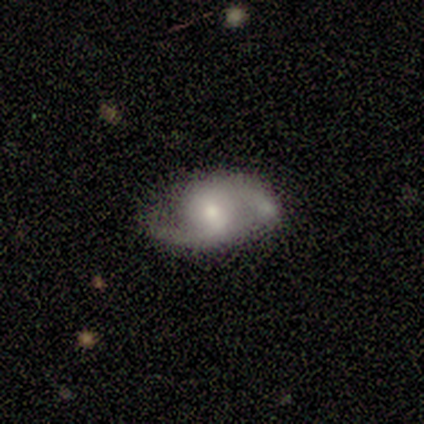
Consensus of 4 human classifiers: A featured or disk galaxy (100%) with no bar (67%), 2 (100%) medium (67%) spiral arms (100%) and a moderate central bulge (67%). Merging: none (75%).